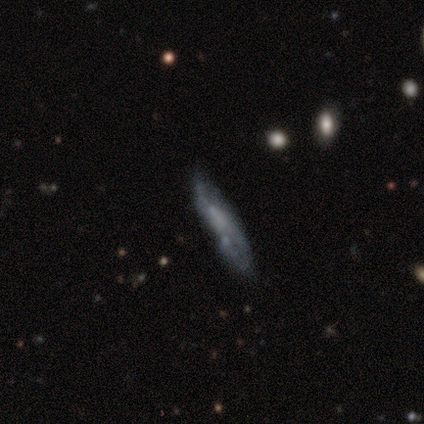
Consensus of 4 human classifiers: smooth_or_featured: featured or disk (p=0.75) [alt: smooth p=0.25]
disk_edge_on: no (p=0.67) [alt: yes p=0.33]
bar: weak (p=0.50) [tied with: no p=0.50]
has_spiral_arms: yes (p=0.50) [tied with: no p=0.50]
spiral_winding: tight (p=1.00)
spiral_arm_count: 2 (p=1.00)
bulge_size: none (p=1.00)
merging: none (p=0.75) [alt: minor disturbance p=0.25]